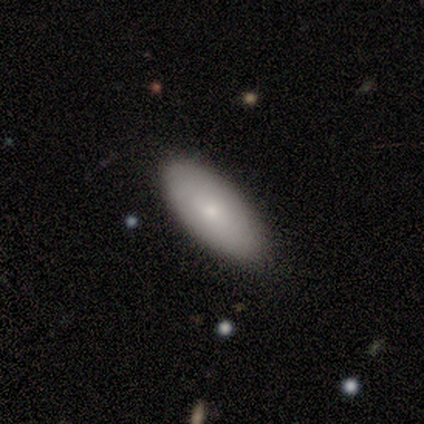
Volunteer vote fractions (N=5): smooth-or-featured: smooth: 80% | featured or disk: 20% | star or artifact: 0%
  how-rounded: in between: 75% | cigar-shaped: 25% | round: 0%
  merging: none: 80% | minor disturbance: 20% | major disturbance: 0% | merger: 0%